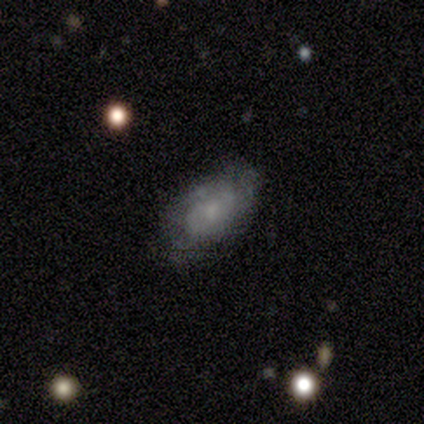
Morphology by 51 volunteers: Smooth or featured? 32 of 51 (63%) said smooth. How rounded? 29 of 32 (91%) said in between. Merging? 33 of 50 (66%) said none.